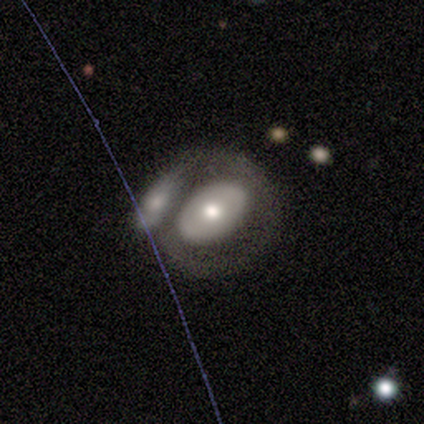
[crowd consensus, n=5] This is likely a smooth galaxy (60%). How rounded: likely round (67%). Merging: likely merger (60%).